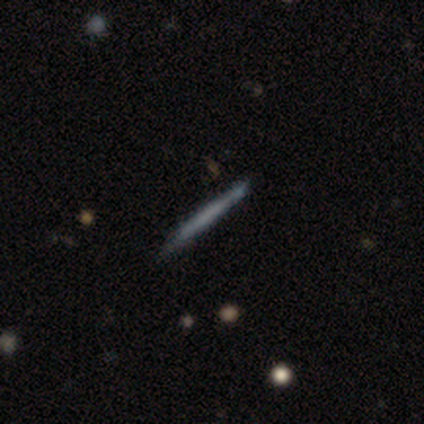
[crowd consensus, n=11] Smooth or featured? featured or disk (55%)
Edge-on disk? yes (100%)
Edge-on bulge? none (100%)
Merging? none (90%)